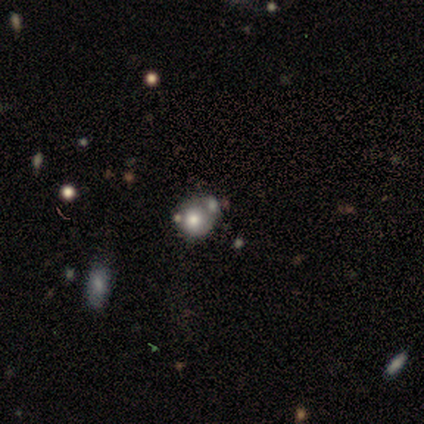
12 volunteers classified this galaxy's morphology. Smooth or featured? smooth (67%)
How rounded? round (88%)
Merging? none (58%)